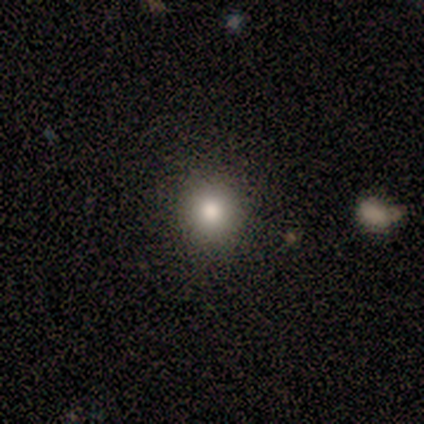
smooth_or_featured: star or artifact (p=0.67) [alt: smooth p=0.33]